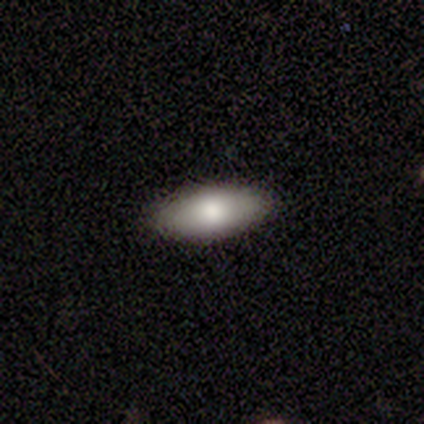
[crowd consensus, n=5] This is clearly a smooth galaxy (100%). How rounded: clearly in between (80%). Merging: clearly none (100%).